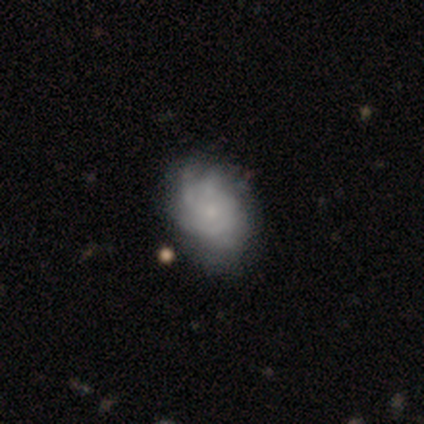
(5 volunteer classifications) This appears to be a smooth galaxy with no disk features (40%, tied with featured or disk) that is in between round and cigar-shaped (100%). Merging: none (75%).